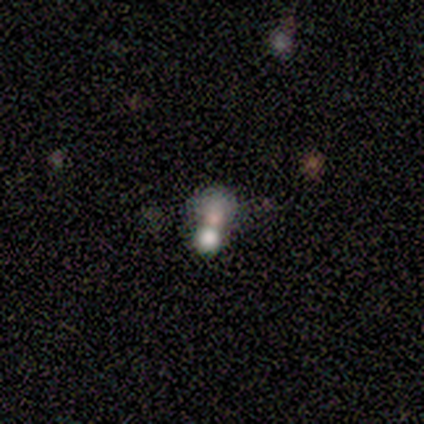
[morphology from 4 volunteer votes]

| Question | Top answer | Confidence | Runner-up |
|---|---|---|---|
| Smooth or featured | star or artifact | 50% | smooth (25%) |